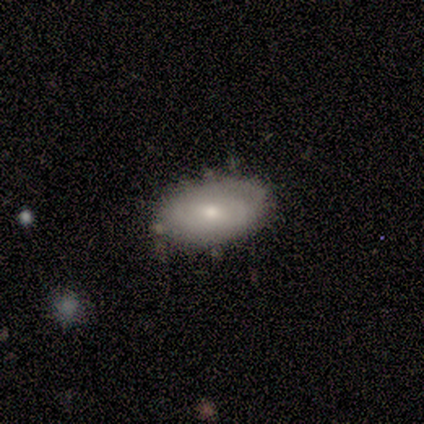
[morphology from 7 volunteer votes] Smooth or featured?
  - smooth: 86% *
  - featured or disk: 14%
  - star or artifact: 0%
How rounded?
  - in between: 100% *
  - round: 0%
  - cigar-shaped: 0%
Merging?
  - none: 86% *
  - merger: 14%
  - minor disturbance: 0%
  - major disturbance: 0%